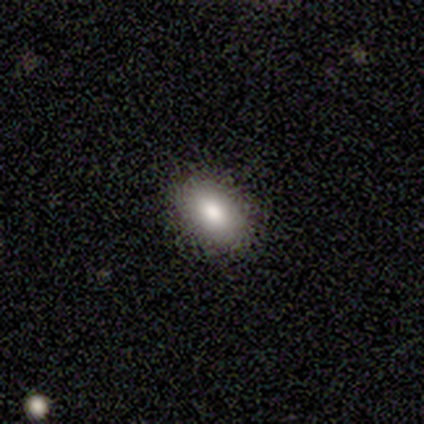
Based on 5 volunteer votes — A smooth galaxy with no disk features (100%) that is in between round and cigar-shaped (80%).

Vote fractions:
- Smooth or featured? smooth: 100% / featured or disk: 0% / star or artifact: 0%
- How rounded? in between: 80% / round: 20% / cigar-shaped: 0%
- Merging? none: 100% / minor disturbance: 0% / major disturbance: 0% / merger: 0%